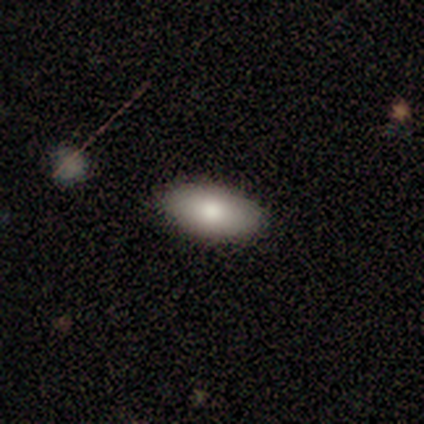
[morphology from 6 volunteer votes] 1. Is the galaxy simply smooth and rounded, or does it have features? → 67% smooth, 17% featured or disk, 17% star or artifact.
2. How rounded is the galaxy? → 100% in between, 0% round, 0% cigar-shaped.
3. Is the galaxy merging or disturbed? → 60% none, 40% minor disturbance, 0% major disturbance, 0% merger.